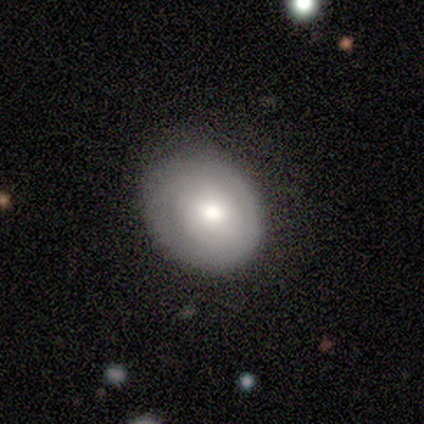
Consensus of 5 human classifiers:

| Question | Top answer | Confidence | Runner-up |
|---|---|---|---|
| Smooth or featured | smooth | 60% | featured or disk (40%) |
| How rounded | round | 67% | in between (33%) |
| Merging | none | 60% | minor disturbance (40%) |